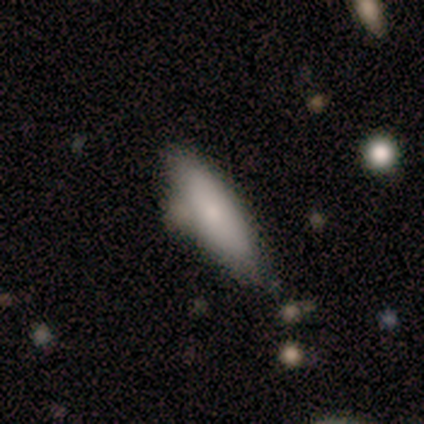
This is clearly a smooth galaxy (85%). How rounded: possibly cigar-shaped (55%). Merging: possibly none (57%).